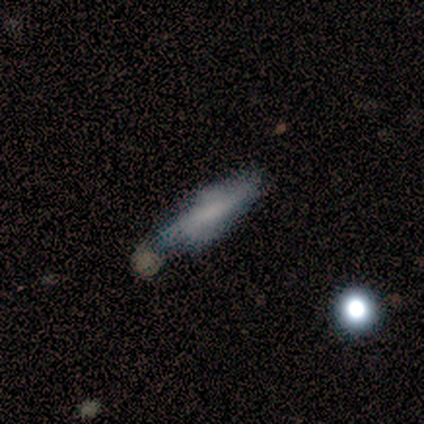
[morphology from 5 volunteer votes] This appears to be a smooth galaxy with no disk features (80%) that is cigar-shaped (75%). Merging: minor disturbance (60%).